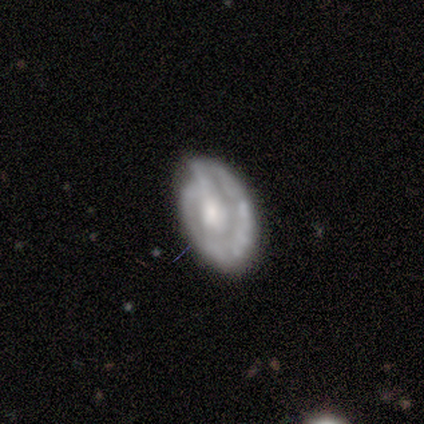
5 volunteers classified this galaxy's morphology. smooth_or_featured: featured or disk (p=0.60) [alt: smooth p=0.40]
disk_edge_on: no (p=1.00)
bar: no (p=0.67) [alt: weak p=0.33]
has_spiral_arms: no (p=0.67) [alt: yes p=0.33]
bulge_size: small (p=0.67) [alt: moderate p=0.33]
merging: minor disturbance (p=0.60) [alt: major disturbance p=0.40]